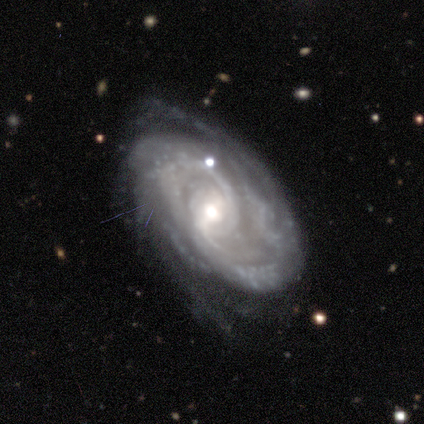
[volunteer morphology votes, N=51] A featured or disk galaxy (92%) with a weak bar (47%), 2 (43%) tight (55%) spiral arms (100%) and a moderate central bulge (60%).

Vote fractions:
- Smooth or featured? featured or disk: 92% / smooth: 4% / star or artifact: 4%
- Edge-on disk? no: 100% / yes: 0%
- Bar? weak: 47% / no: 30% / strong: 23%
- Spiral arms? yes: 100% / no: 0%
- Spiral winding? tight: 55% / medium: 34% / loose: 11%
- Spiral arm count? 2: 43% / can't tell: 26% / 3: 11% / more than 4: 11% / 4: 9% / 1: 2%
- Bulge size? moderate: 60% / small: 26% / large: 11% / dominant: 2% / none: 2%
- Merging? none: 69% / minor disturbance: 18% / major disturbance: 10% / merger: 2%